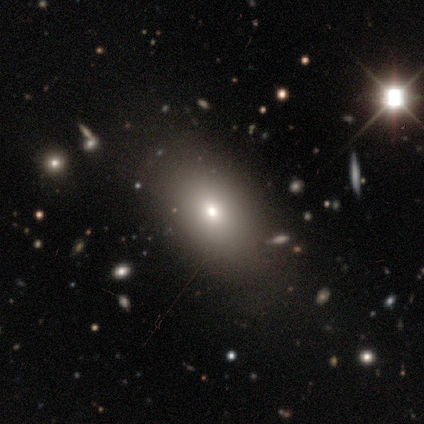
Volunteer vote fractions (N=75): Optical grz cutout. It shows a smooth galaxy with no disk features (69%) that is in between round and cigar-shaped (71%). Merging: none (42%).